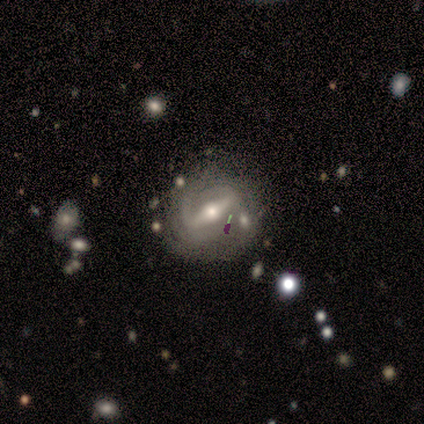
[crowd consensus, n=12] Q: Smooth or featured?
A: featured or disk (83%); runner-up: smooth (17%)
Q: Edge-on disk?
A: no (90%); runner-up: yes (10%)
Q: Bar?
A: strong (89%); runner-up: weak (11%)
Q: Spiral arms?
A: yes (89%); runner-up: no (11%)
Q: Spiral winding?
A: tight (50%); runner-up: medium (25%)
Q: Spiral arm count?
A: 2 (62%); runner-up: can't tell (25%)
Q: Bulge size?
A: moderate (56%); runner-up: small (44%)
Q: Merging?
A: none (67%); runner-up: minor disturbance (17%)